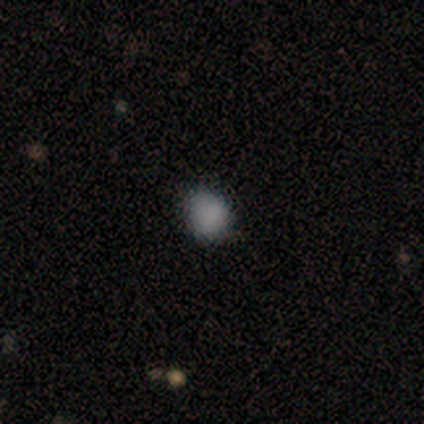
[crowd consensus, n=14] A smooth galaxy with no disk features (100%) that is round (86%).

Vote fractions:
- Smooth or featured? smooth: 100% / featured or disk: 0% / star or artifact: 0%
- How rounded? round: 86% / in between: 14% / cigar-shaped: 0%
- Merging? none: 71% / minor disturbance: 21% / major disturbance: 7% / merger: 0%